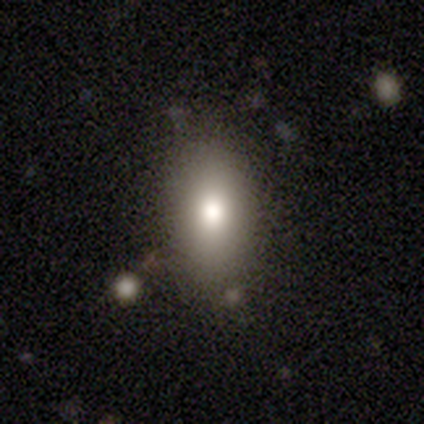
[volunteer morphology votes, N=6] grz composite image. It shows a smooth galaxy with no disk features (67%) that is in between round and cigar-shaped (75%). Merging: none (50%).